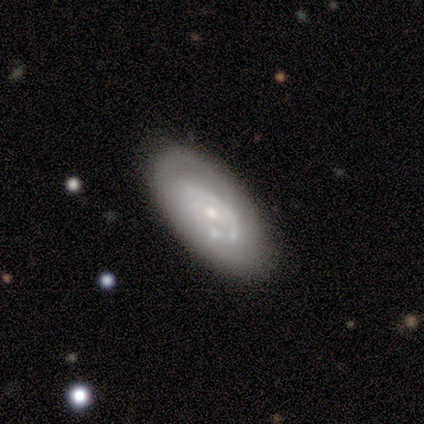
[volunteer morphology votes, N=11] Smooth or featured? 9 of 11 (82%) said featured or disk. Edge-on disk? 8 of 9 (89%) said no. Bar? 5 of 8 (62%) said no. Spiral arms? 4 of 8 (50%, tied with no) said yes. Spiral winding? 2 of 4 (50%, tied with medium) said tight. Spiral arm count? 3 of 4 (75%) said can't tell. Bulge size? 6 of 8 (75%) said small. Merging? 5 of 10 (50%) said none.